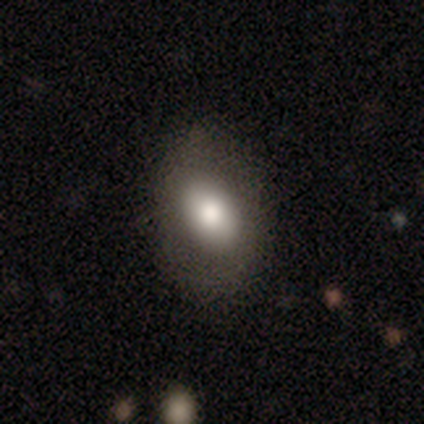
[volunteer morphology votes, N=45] Q: Smooth or featured?
A: smooth (73%); runner-up: featured or disk (18%)
Q: How rounded?
A: in between (91%); runner-up: round (9%)
Q: Merging?
A: none (73%); runner-up: minor disturbance (22%)